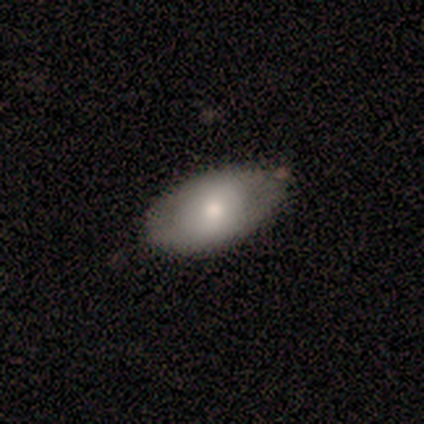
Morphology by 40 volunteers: Smooth or featured? smooth (78%)
How rounded? in between (97%)
Merging? none (48%)